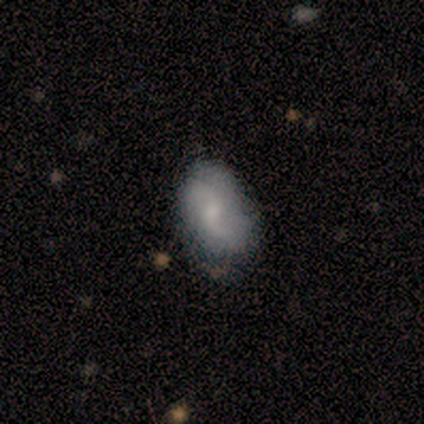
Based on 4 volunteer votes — smooth 75%, featured or disk 25%, star or artifact 0%. Down the decision tree: how rounded — in between (100%); merging — none (75%).